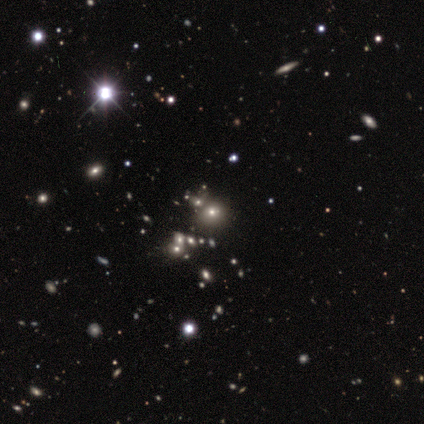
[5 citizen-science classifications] A star or artifact, not a galaxy (60%).